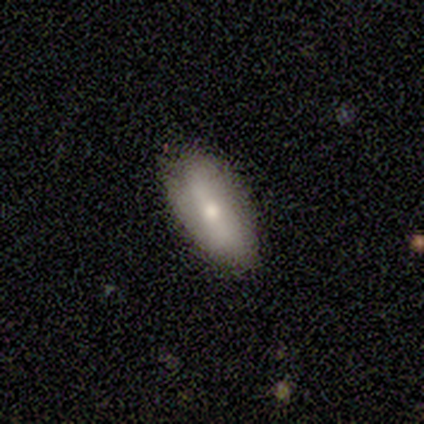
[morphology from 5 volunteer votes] smooth 60%, featured or disk 40%, star or artifact 0%. Down the decision tree: how rounded — in between (100%); merging — none (60%).